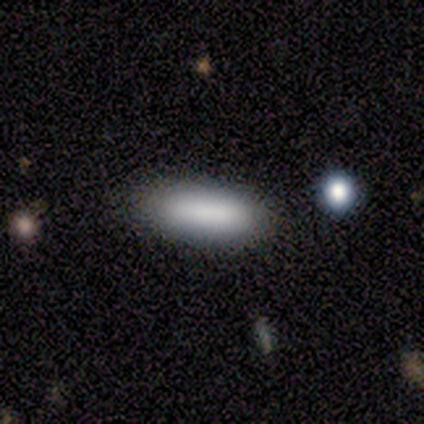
smooth_or_featured: smooth (p=1.00)
how_rounded: in between (p=0.67) [alt: cigar-shaped p=0.33]
merging: none (p=1.00)